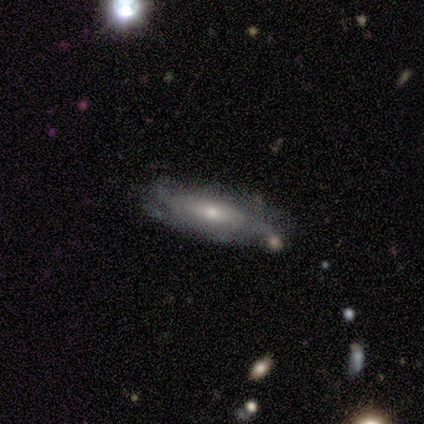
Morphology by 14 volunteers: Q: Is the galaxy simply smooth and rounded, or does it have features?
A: smooth — 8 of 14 (57%).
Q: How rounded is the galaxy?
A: cigar-shaped — 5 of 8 (62%).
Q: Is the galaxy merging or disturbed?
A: none — 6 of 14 (43%).